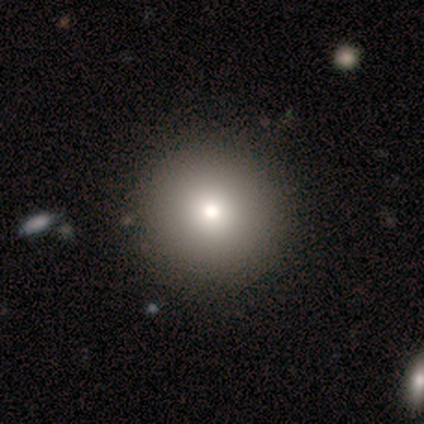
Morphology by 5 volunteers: smooth 80%, star or artifact 20%, featured or disk 0%. Down the decision tree: how rounded — round (100%); merging — none (75%).